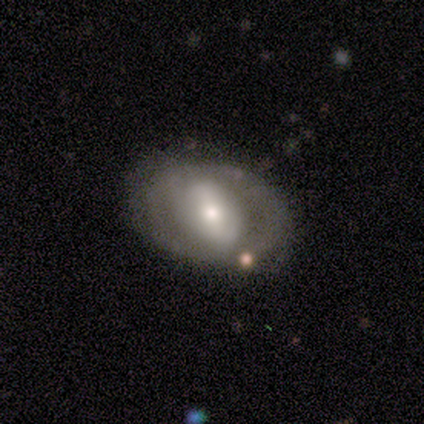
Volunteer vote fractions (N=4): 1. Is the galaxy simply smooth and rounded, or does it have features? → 50% featured or disk, 25% smooth, 25% star or artifact.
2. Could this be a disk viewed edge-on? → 100% no, 0% yes.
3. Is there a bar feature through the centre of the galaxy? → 50% weak (tied), 50% no (tied), 0% strong.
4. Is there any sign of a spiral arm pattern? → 50% yes (tied), 50% no (tied).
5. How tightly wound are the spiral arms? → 100% loose, 0% tight, 0% medium.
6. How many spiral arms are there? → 100% 2, 0% 1, 0% 3, 0% 4, 0% more than 4, 0% can't tell.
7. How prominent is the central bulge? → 50% moderate (tied), 50% small (tied), 0% dominant, 0% large, 0% none.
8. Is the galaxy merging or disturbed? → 67% minor disturbance, 33% none, 0% major disturbance, 0% merger.